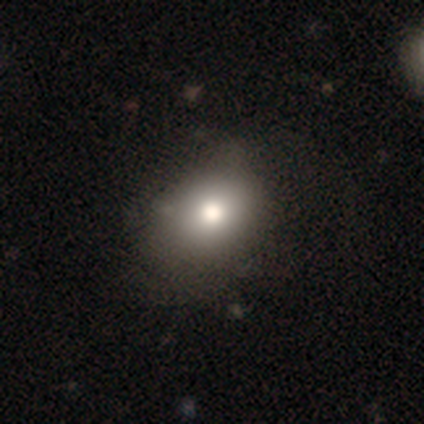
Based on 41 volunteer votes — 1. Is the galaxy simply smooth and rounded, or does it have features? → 68% smooth, 22% star or artifact, 10% featured or disk.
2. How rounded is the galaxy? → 50% in between, 43% round, 7% cigar-shaped.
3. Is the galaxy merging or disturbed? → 66% none, 25% minor disturbance, 9% major disturbance, 0% merger.